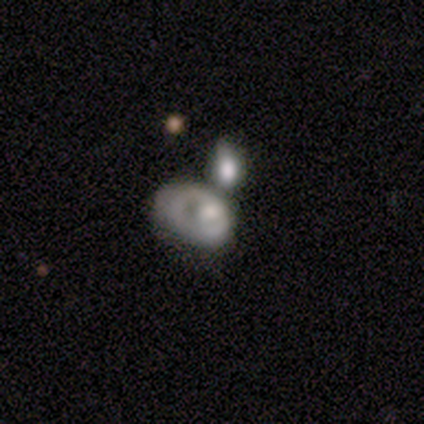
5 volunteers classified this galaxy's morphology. Q: Smooth or featured?
A: featured or disk (80%); runner-up: smooth (20%)
Q: Edge-on disk?
A: no (100%)
Q: Bar?
A: no (100%)
Q: Spiral arms?
A: no (75%); runner-up: yes (25%)
Q: Bulge size?
A: large (50%); tied with: moderate (50%)
Q: Merging?
A: merger (40%); runner-up: none (20%)